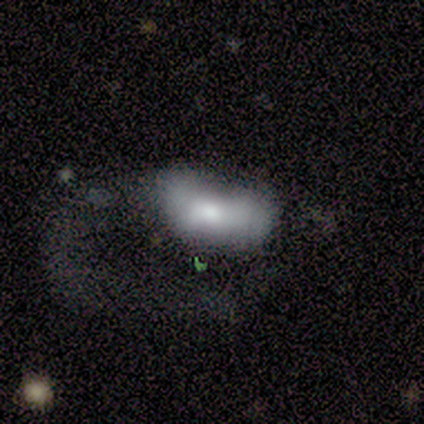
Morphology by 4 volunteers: type=smooth (50%, tied with featured or disk); roundness=round (50%, tied with in between); merging=major disturbance (75%).